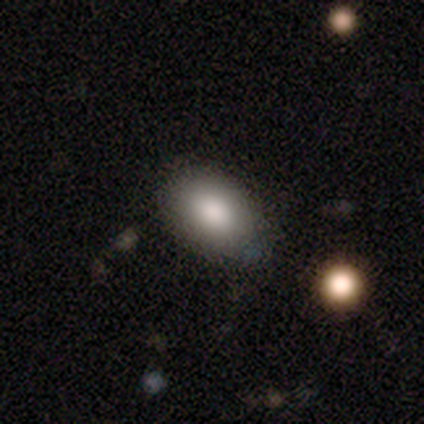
Smooth or featured? 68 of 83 (82%) said smooth. How rounded? 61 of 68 (90%) said in between. Merging? 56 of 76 (74%) said none.